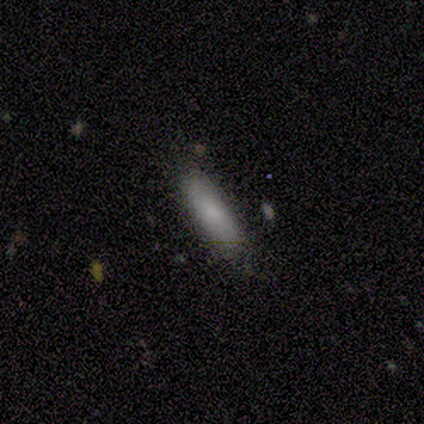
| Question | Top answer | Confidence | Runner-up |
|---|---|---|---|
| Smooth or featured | smooth | 100% | — |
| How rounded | cigar-shaped | 100% | — |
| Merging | none | 100% | — |